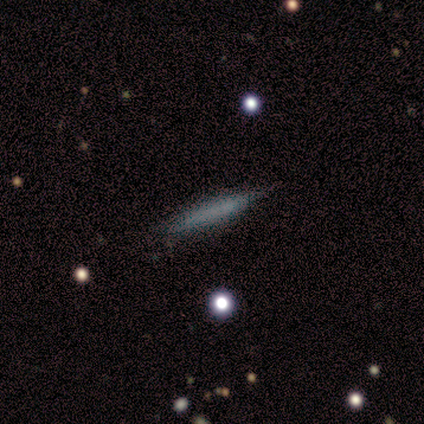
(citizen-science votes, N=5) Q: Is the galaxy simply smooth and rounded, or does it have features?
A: smooth — 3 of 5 (60%).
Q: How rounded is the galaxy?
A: cigar-shaped — 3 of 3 (100%).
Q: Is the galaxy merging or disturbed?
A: none — 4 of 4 (100%).